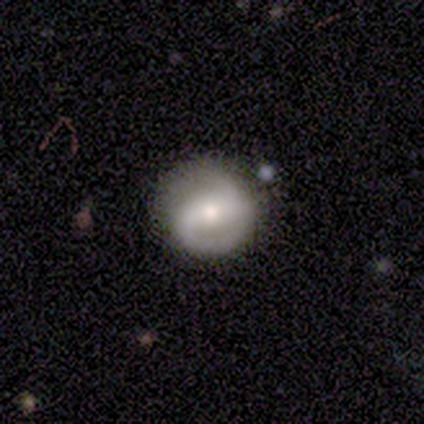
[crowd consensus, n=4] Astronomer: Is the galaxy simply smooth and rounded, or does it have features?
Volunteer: smooth — 50%.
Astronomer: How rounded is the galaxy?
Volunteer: round — 100%.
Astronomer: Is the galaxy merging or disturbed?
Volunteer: none — 100%.